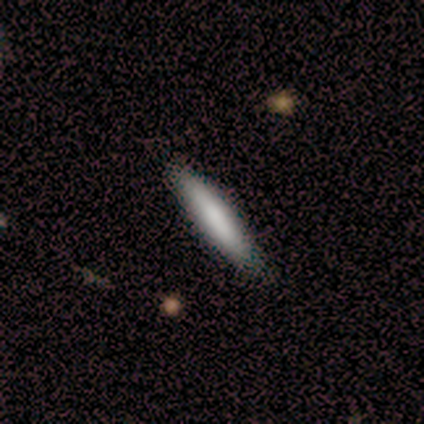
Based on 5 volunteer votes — This is clearly a smooth galaxy (100%). How rounded: clearly cigar-shaped (100%). Merging: likely minor disturbance (60%).